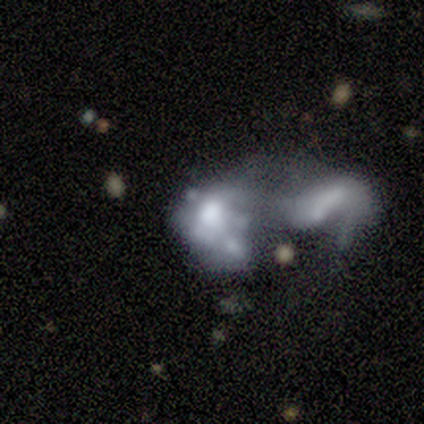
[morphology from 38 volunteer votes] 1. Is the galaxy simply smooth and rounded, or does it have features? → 74% featured or disk, 21% smooth, 5% star or artifact.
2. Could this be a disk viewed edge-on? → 100% no, 0% yes.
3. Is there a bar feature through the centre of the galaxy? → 89% no, 7% weak, 4% strong.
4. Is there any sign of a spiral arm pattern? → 79% no, 21% yes.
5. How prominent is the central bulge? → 43% large, 25% moderate, 18% none, 7% dominant, 7% small.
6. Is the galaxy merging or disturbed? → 81% merger, 11% major disturbance, 6% minor disturbance, 3% none.